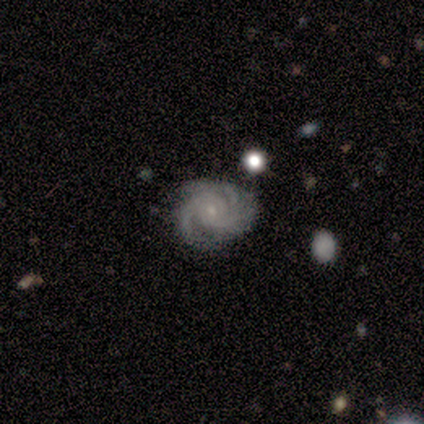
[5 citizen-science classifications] A featured or disk galaxy (80%) with a weak bar (50%, tied with no), 2 (50%) tight (75%) spiral arms (100%) and a small central bulge (75%). Merging: none (80%).